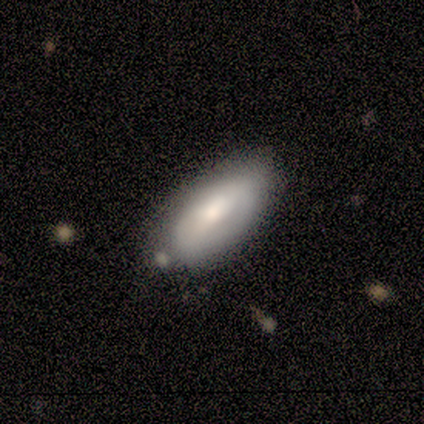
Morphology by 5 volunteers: A smooth galaxy with no disk features (60%) that is in between round and cigar-shaped (100%).

Vote fractions:
- Smooth or featured? smooth: 60% / featured or disk: 40% / star or artifact: 0%
- How rounded? in between: 100% / round: 0% / cigar-shaped: 0%
- Merging? none: 80% / minor disturbance: 20% / major disturbance: 0% / merger: 0%